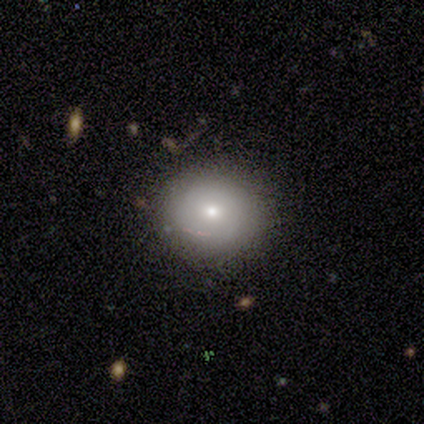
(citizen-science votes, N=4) A featured or disk galaxy (75%) with no bar (67%), 2 (50%, tied with can't tell) medium (50%, tied with loose) spiral arms (67%) and a small central bulge (67%). Merging: none (75%).